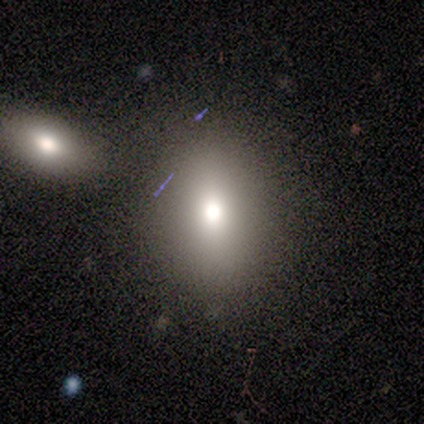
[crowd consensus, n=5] Smooth or featured? 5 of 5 (100%) said smooth. How rounded? 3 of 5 (60%) said in between. Merging? 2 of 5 (40%, tied with major disturbance) said none.